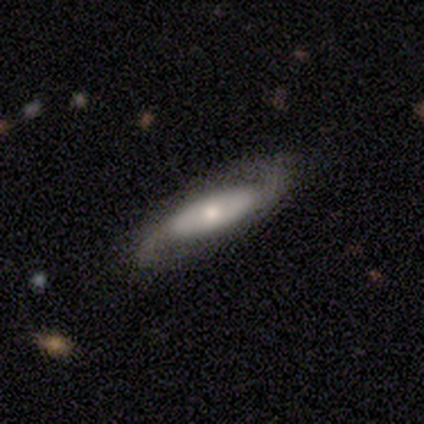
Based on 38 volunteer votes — Smooth or featured?
  - featured or disk: 82% *
  - smooth: 13%
  - star or artifact: 5%
Edge-on disk?
  - no: 81% *
  - yes: 19%
Bar?
  - no: 64% *
  - weak: 20%
  - strong: 16%
Spiral arms?
  - yes: 84% *
  - no: 16%
Spiral winding?
  - loose: 57% *
  - medium: 38%
  - tight: 5%
Spiral arm count?
  - 2: 95% *
  - can't tell: 5%
  - 1: 0%
  - 3: 0%
  - 4: 0%
  - more than 4: 0%
Bulge size?
  - moderate: 44% *
  - small: 32%
  - large: 16%
  - none: 8%
  - dominant: 0%
Merging?
  - none: 75% *
  - minor disturbance: 25%
  - major disturbance: 0%
  - merger: 0%